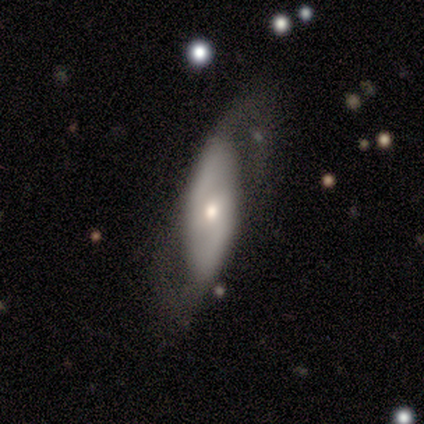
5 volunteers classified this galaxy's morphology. Overall: featured or disk (80%). Edge-on disk: no (75%). Bar: weak (67%; no 33%). Spiral arms: no (67%; yes 33%). Bulge size: small (67%; moderate 33%). Merging: minor disturbance (60%; none 20%).